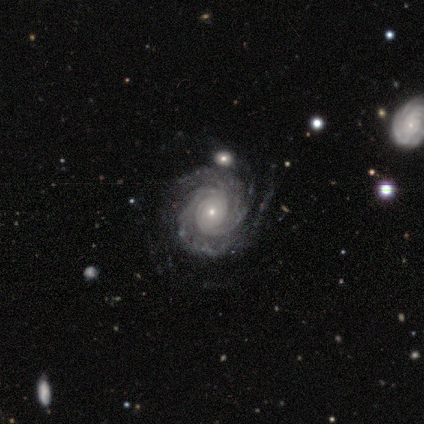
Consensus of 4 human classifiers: A featured or disk galaxy (100%) with no bar (100%), 2 (50%) tight (100%) spiral arms (100%) and a small central bulge (100%).

Vote fractions:
- Smooth or featured? featured or disk: 100% / smooth: 0% / star or artifact: 0%
- Edge-on disk? no: 100% / yes: 0%
- Bar? no: 100% / strong: 0% / weak: 0%
- Spiral arms? yes: 100% / no: 0%
- Spiral winding? tight: 100% / medium: 0% / loose: 0%
- Spiral arm count? 2: 50% / 4: 25% / more than 4: 25% / 1: 0% / 3: 0% / can't tell: 0%
- Bulge size? small: 100% / dominant: 0% / large: 0% / moderate: 0% / none: 0%
- Merging? none: 100% / minor disturbance: 0% / major disturbance: 0% / merger: 0%